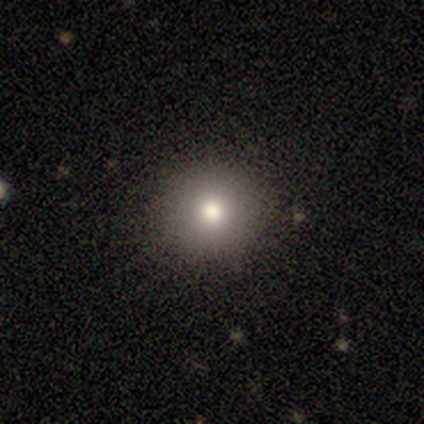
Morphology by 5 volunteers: smooth_or_featured: smooth (p=0.80) [alt: featured or disk p=0.20]
how_rounded: round (p=1.00)
merging: none (p=1.00)